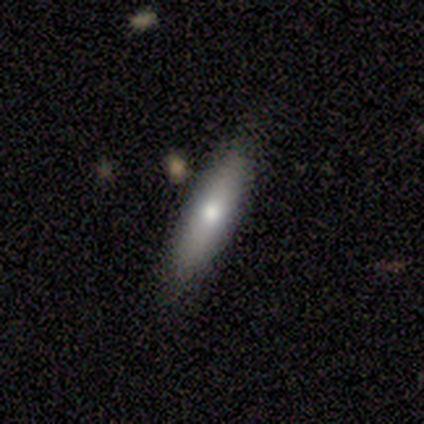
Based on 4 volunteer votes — Smooth or featured?
  - smooth: 100% *
  - featured or disk: 0%
  - star or artifact: 0%
How rounded?
  - cigar-shaped: 75% *
  - in between: 25%
  - round: 0%
Merging?
  - none: 100% *
  - minor disturbance: 0%
  - major disturbance: 0%
  - merger: 0%